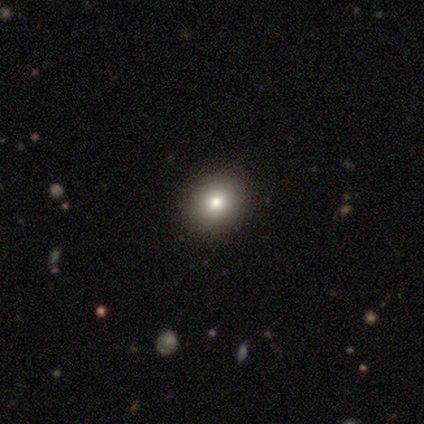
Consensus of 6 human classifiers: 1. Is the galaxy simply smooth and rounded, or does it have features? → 50% smooth, 33% featured or disk, 17% star or artifact.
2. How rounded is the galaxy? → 100% round, 0% in between, 0% cigar-shaped.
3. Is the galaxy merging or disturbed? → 100% none, 0% minor disturbance, 0% major disturbance, 0% merger.